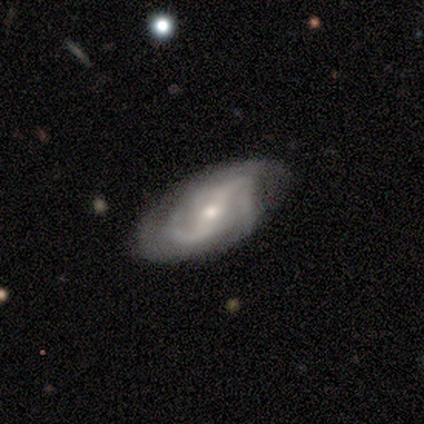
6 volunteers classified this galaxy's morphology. Smooth or featured?
  - featured or disk: 67% *
  - smooth: 33%
  - star or artifact: 0%
Edge-on disk?
  - no: 100% *
  - yes: 0%
Bar?
  - no: 50% *
  - strong: 25%
  - weak: 25%
Spiral arms?
  - yes: 75% *
  - no: 25%
Spiral winding?
  - loose: 67% *
  - medium: 33%
  - tight: 0%
Spiral arm count?
  - 2: 100% *
  - 1: 0%
  - 3: 0%
  - 4: 0%
  - more than 4: 0%
  - can't tell: 0%
Bulge size?
  - moderate: 50% *
  - large: 25%
  - small: 25%
  - dominant: 0%
  - none: 0%
Merging?
  - none: 100% *
  - minor disturbance: 0%
  - major disturbance: 0%
  - merger: 0%